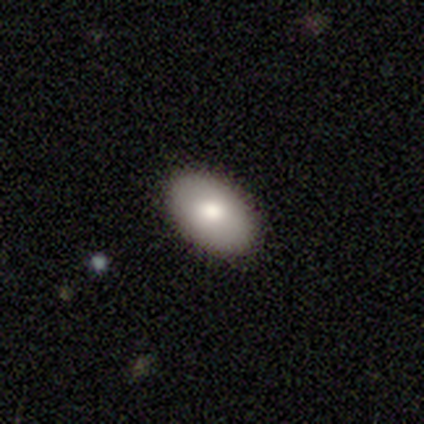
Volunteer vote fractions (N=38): This is likely a smooth galaxy (79%). How rounded: clearly in between (90%). Merging: clearly none (92%).